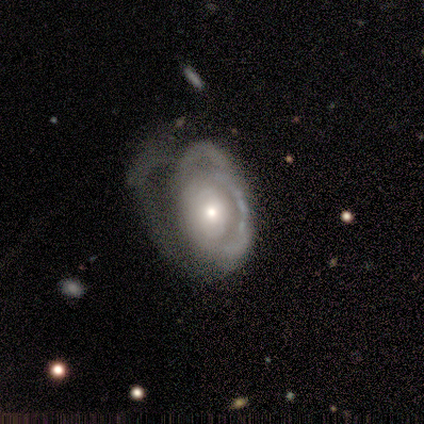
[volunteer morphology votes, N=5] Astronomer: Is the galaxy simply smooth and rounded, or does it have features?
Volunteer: featured or disk — 80%.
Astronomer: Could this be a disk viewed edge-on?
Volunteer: no — 100%.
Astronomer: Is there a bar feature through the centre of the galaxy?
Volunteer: no — 100%.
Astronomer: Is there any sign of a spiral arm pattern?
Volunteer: yes — 50%, tied with no at 50%.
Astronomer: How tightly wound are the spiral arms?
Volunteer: medium — 100%.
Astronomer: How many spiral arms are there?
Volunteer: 1 — 50%, tied with 3 at 50%.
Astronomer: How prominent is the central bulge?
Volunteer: moderate — 75%.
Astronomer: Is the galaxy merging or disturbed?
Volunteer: major disturbance — 100%.